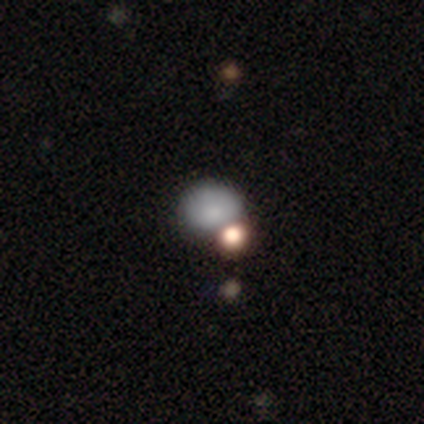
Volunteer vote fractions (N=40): Smooth or featured?
  - smooth: 75% *
  - star or artifact: 15%
  - featured or disk: 10%
How rounded?
  - round: 67% *
  - in between: 33%
  - cigar-shaped: 0%
Merging?
  - merger: 47% *
  - none: 24%
  - major disturbance: 6%
  - minor disturbance: 0%